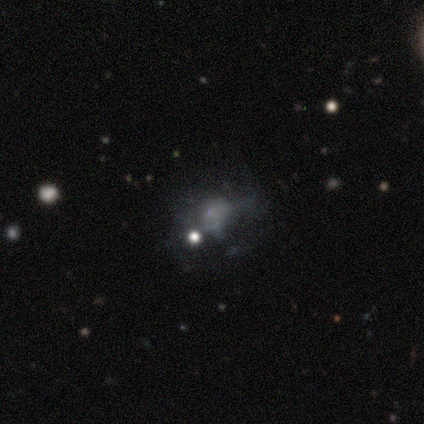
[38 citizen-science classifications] This appears to be a smooth galaxy with no disk features (42%) that is in between round and cigar-shaped (56%). Merging: none (37%).